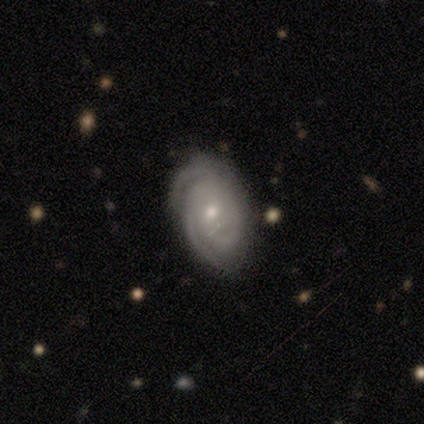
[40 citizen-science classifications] A featured or disk galaxy (85%) with no bar (82%), 3 (44%) tight (88%) spiral arms (100%) and a small central bulge (59%).

Vote fractions:
- Smooth or featured? featured or disk: 85% / smooth: 12% / star or artifact: 2%
- Edge-on disk? no: 100% / yes: 0%
- Bar? no: 82% / weak: 12% / strong: 6%
- Spiral arms? yes: 100% / no: 0%
- Spiral winding? tight: 88% / medium: 9% / loose: 3%
- Spiral arm count? 3: 44% / 2: 35% / can't tell: 18% / 4: 3% / 1: 0% / more than 4: 0%
- Bulge size? small: 59% / moderate: 38% / none: 3% / dominant: 0% / large: 0%
- Merging? none: 51% / minor disturbance: 13% / major disturbance: 3% / merger: 3%